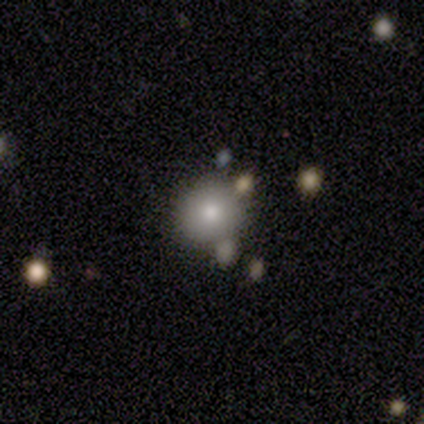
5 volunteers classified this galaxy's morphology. Smooth or featured: smooth — 80% (featured or disk — 20%)
How rounded: round — 100%
Merging: none — 60% (merger — 40%)